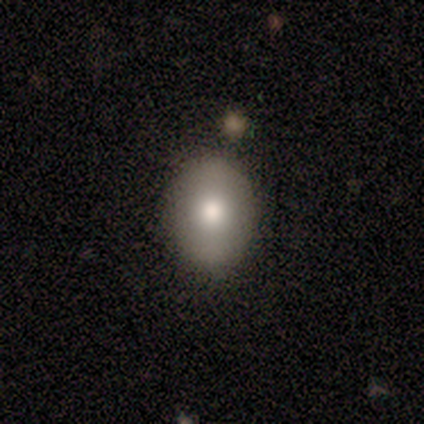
This is likely a smooth galaxy (67%). How rounded: possibly round (50%, tied with in between). Merging: likely none (67%).